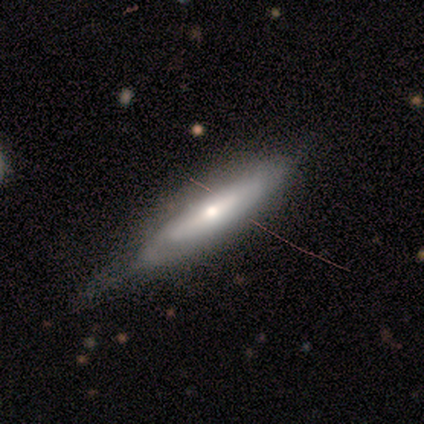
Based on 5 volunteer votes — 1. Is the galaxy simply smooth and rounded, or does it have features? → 60% featured or disk, 40% smooth, 0% star or artifact.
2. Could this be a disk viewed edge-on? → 67% no, 33% yes.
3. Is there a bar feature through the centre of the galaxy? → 50% strong (tied), 50% no (tied), 0% weak.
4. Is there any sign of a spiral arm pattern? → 100% yes, 0% no.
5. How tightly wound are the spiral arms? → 50% tight (tied), 50% medium (tied), 0% loose.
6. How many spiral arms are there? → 50% 1 (tied), 50% can't tell (tied), 0% 2, 0% 3, 0% 4, 0% more than 4.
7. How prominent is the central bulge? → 100% small, 0% dominant, 0% large, 0% moderate, 0% none.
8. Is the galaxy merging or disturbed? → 60% minor disturbance, 40% none, 0% major disturbance, 0% merger.